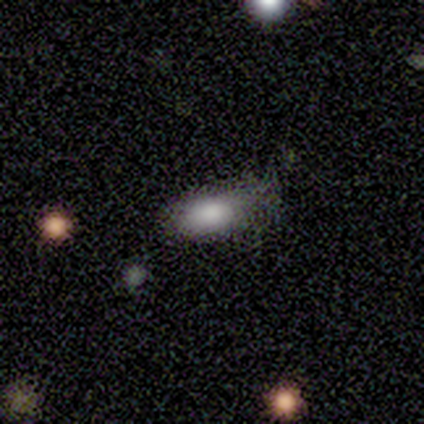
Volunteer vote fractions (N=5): Smooth or featured: smooth — 80% (featured or disk — 20%)
How rounded: in between — 100%
Merging: none — 80% (minor disturbance — 20%)